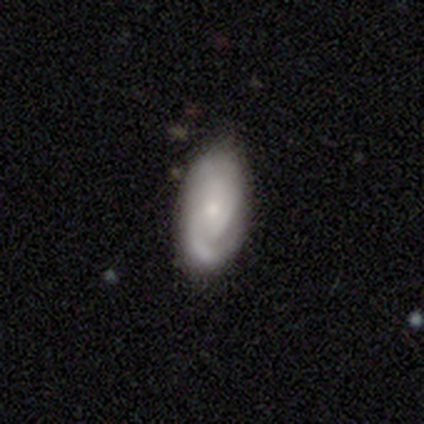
Smooth or featured?
  - featured or disk: 60% *
  - smooth: 40%
  - star or artifact: 0%
Edge-on disk?
  - no: 100% *
  - yes: 0%
Bar?
  - no: 67% *
  - weak: 33%
  - strong: 0%
Spiral arms?
  - yes: 100% *
  - no: 0%
Spiral winding?
  - tight: 67% *
  - loose: 33%
  - medium: 0%
Spiral arm count?
  - 1: 33% * (tied)
  - 3: 33% * (tied)
  - can't tell: 33% * (tied)
  - 2: 0%
  - 4: 0%
  - more than 4: 0%
Bulge size?
  - small: 100% *
  - dominant: 0%
  - large: 0%
  - moderate: 0%
  - none: 0%
Merging?
  - none: 60% *
  - minor disturbance: 40%
  - major disturbance: 0%
  - merger: 0%